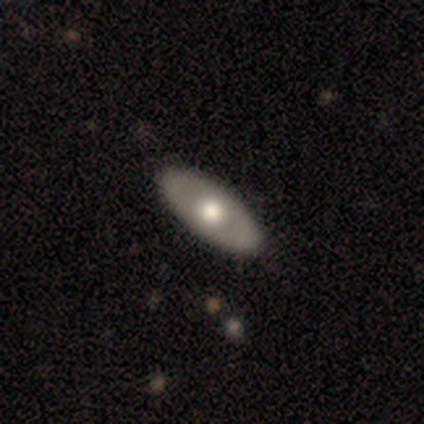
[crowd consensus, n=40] Smooth or featured? 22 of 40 (55%) said smooth. How rounded? 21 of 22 (95%) said in between. Merging? 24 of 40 (60%) said none.